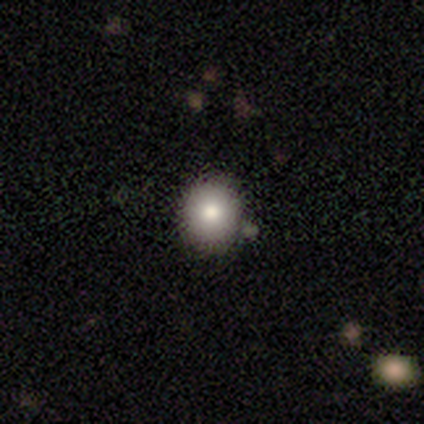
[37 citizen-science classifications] smooth-or-featured: smooth: 81% | featured or disk: 19% | star or artifact: 0%
  how-rounded: round: 77% | in between: 23% | cigar-shaped: 0%
  merging: none: 76% | merger: 14% | minor disturbance: 11% | major disturbance: 0%